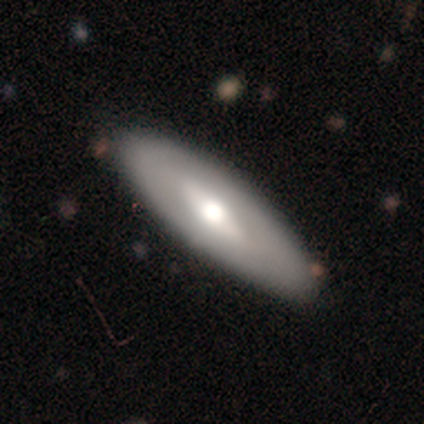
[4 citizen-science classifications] This is possibly a smooth galaxy (50%, tied with featured or disk). How rounded: clearly cigar-shaped (100%). Merging: possibly none (50%).